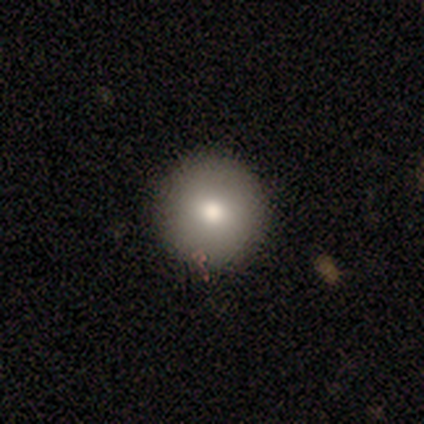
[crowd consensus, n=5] smooth 80%, featured or disk 20%, star or artifact 0%. Down the decision tree: how rounded — round (100%); merging — none (100%).